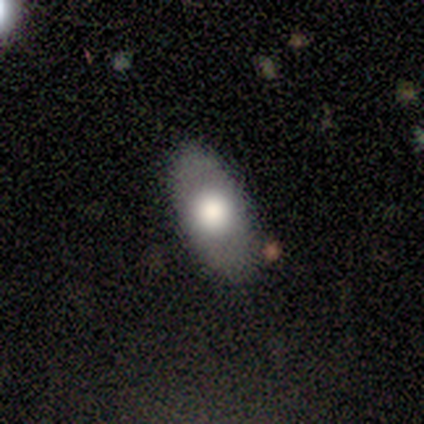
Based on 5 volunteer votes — Overall: smooth (60%; featured or disk 40%). How rounded: in between (100%). Merging: none (100%).